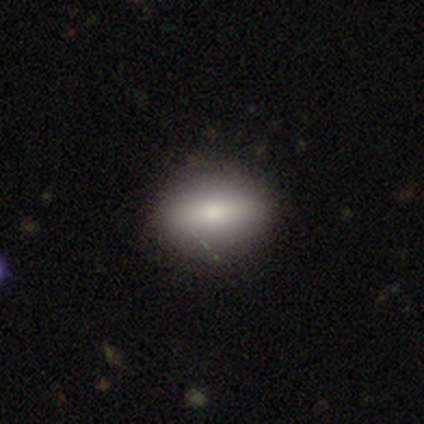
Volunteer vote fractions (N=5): Q: Smooth or featured?
A: smooth (100%)
Q: How rounded?
A: in between (80%); runner-up: cigar-shaped (20%)
Q: Merging?
A: none (100%)